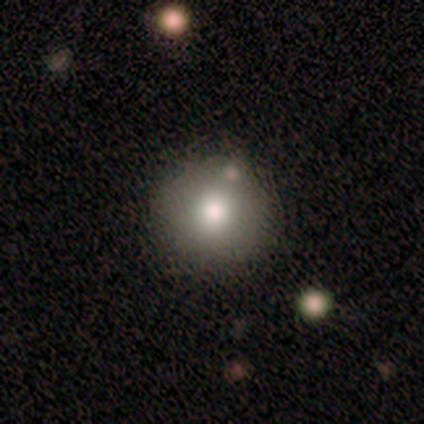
This appears to be a smooth galaxy with no disk features (100%) that is round (100%). Merging: none (100%).